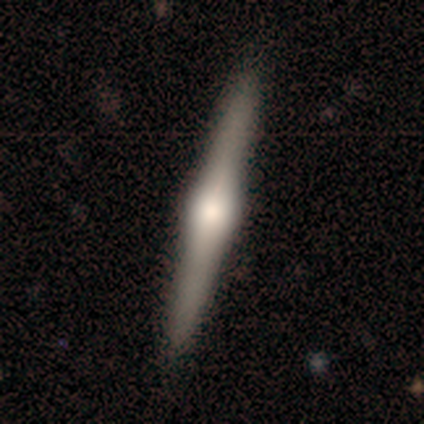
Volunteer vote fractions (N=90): A featured or disk galaxy (77%) viewed edge-on (100%) with a rounded central bulge (93%).

Vote fractions:
- Smooth or featured? featured or disk: 77% / smooth: 19% / star or artifact: 4%
- Edge-on disk? yes: 100% / no: 0%
- Edge-on bulge? rounded: 93% / boxy: 7% / none: 0%
- Merging? none: 95% / minor disturbance: 2% / major disturbance: 1% / merger: 1%